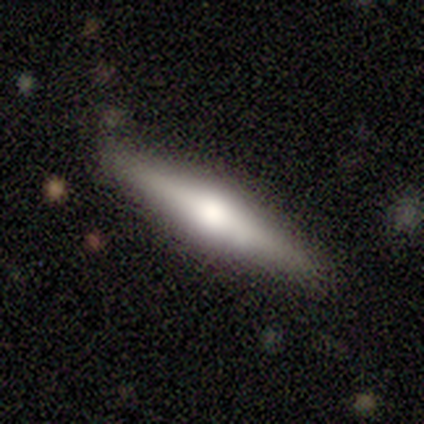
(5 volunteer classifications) Volunteers were most divided on "edge-on bulge": rounded: 75%, boxy: 25%, none: 0%. More confident: edge-on disk — yes (100%); merging — none (100%); smooth or featured — featured or disk (80%).